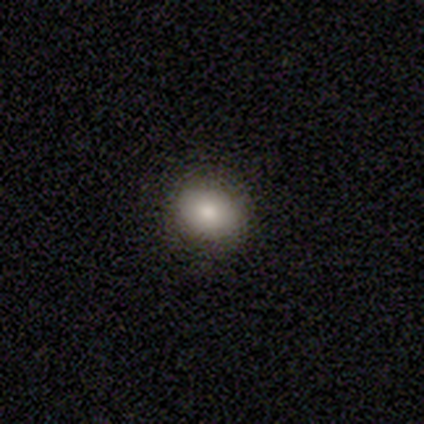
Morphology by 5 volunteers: Overall: smooth (100%). How rounded: in between (100%). Merging: none (100%).